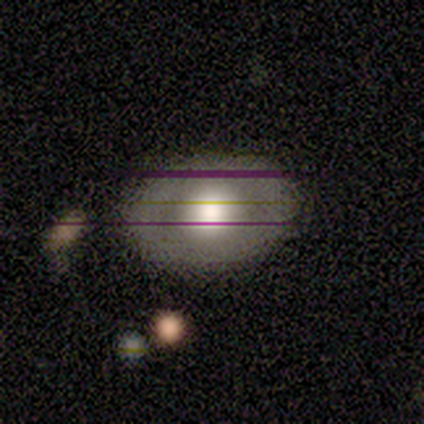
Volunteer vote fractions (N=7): Morphology: type=featured or disk (57%); edge-on=no (100%); bar=no (100%); spiral arms=no (75%); bulge=large (50%, tied with moderate); merging=none (83%).